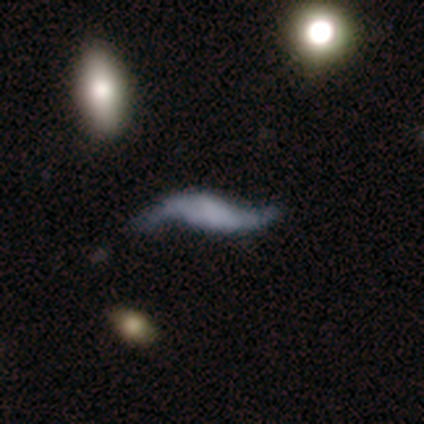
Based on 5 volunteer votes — Smooth or featured?
  - featured or disk: 80% *
  - smooth: 20%
  - star or artifact: 0%
Edge-on disk?
  - no: 75% *
  - yes: 25%
Bar?
  - no: 100% *
  - strong: 0%
  - weak: 0%
Spiral arms?
  - yes: 67% *
  - no: 33%
Spiral winding?
  - loose: 100% *
  - tight: 0%
  - medium: 0%
Spiral arm count?
  - 2: 100% *
  - 1: 0%
  - 3: 0%
  - 4: 0%
  - more than 4: 0%
  - can't tell: 0%
Bulge size?
  - none: 100% *
  - dominant: 0%
  - large: 0%
  - moderate: 0%
  - small: 0%
Merging?
  - none: 60% *
  - minor disturbance: 20%
  - major disturbance: 20%
  - merger: 0%